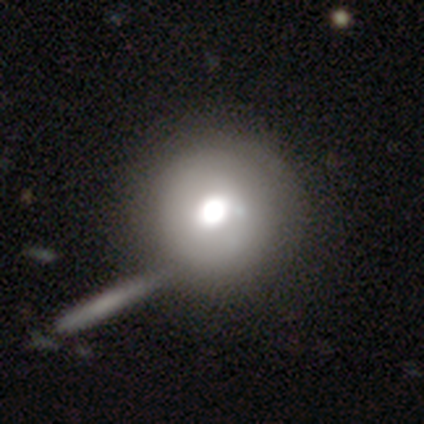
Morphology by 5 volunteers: A featured or disk galaxy (80%) with no bar (100%), no spiral arms (75%) and a moderate central bulge (75%).

Vote fractions:
- Smooth or featured? featured or disk: 80% / star or artifact: 20% / smooth: 0%
- Edge-on disk? no: 100% / yes: 0%
- Bar? no: 100% / strong: 0% / weak: 0%
- Spiral arms? no: 75% / yes: 25%
- Bulge size? moderate: 75% / large: 25% / dominant: 0% / small: 0% / none: 0%
- Merging? none: 100% / minor disturbance: 0% / major disturbance: 0% / merger: 0%